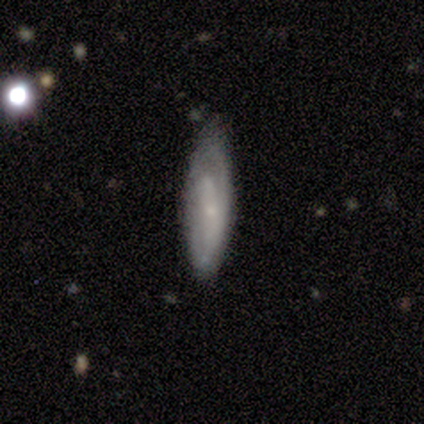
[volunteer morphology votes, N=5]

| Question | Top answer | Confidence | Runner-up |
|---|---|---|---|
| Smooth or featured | featured or disk | 100% | — |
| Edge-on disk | no | 60% | yes (40%) |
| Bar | no | 100% | — |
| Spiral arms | yes | 67% | no (33%) |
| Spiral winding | tight | 50% | tied: medium (50%) |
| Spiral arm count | can't tell | 100% | — |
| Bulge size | small | 100% | — |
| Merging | minor disturbance | 60% | none (40%) |